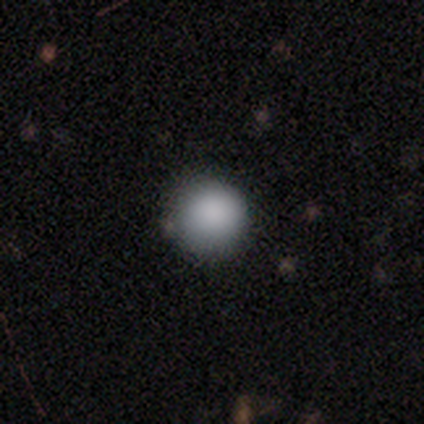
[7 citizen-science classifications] Volunteers were most divided on "merging": none: 71%, minor disturbance: 14%, major disturbance: 14%, merger: 0%. More confident: smooth or featured — smooth (100%); how rounded — round (86%).